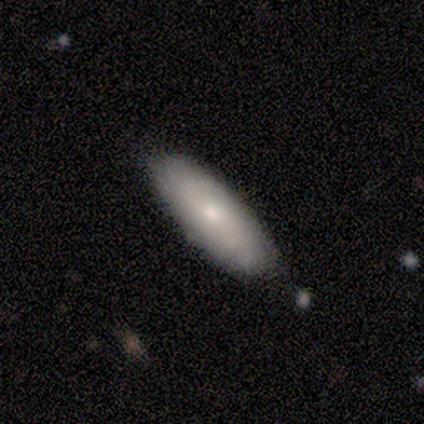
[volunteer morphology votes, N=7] Smooth or featured: smooth — 57% (featured or disk — 43%)
How rounded: in between — 75% (cigar-shaped — 25%)
Merging: none — 86% (minor disturbance — 14%)